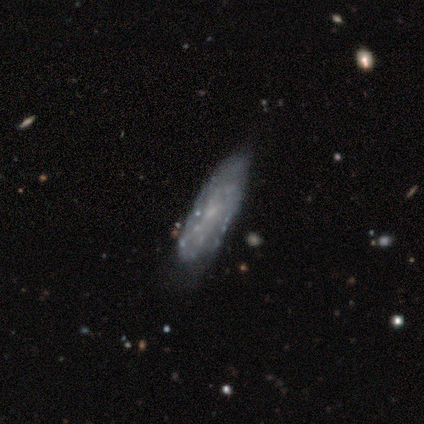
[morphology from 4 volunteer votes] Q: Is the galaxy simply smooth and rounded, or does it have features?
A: smooth — 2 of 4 (50%, tied with featured or disk).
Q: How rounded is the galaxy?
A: in between — 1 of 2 (50%, tied with cigar-shaped).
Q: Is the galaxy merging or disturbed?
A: none — 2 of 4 (50%, tied with minor disturbance).